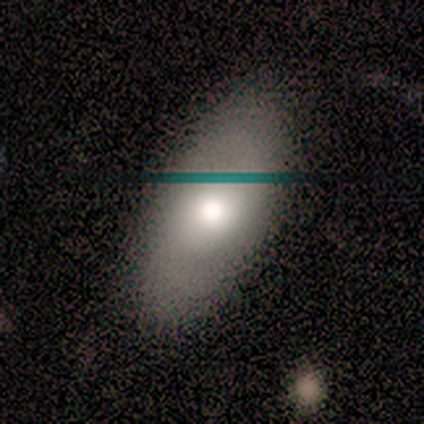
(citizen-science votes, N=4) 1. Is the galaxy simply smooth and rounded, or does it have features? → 50% featured or disk, 25% smooth, 25% star or artifact.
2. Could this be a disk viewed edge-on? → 100% no, 0% yes.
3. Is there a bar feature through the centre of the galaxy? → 50% strong (tied), 50% no (tied), 0% weak.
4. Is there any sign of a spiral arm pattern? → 50% yes (tied), 50% no (tied).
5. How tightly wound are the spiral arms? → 100% medium, 0% tight, 0% loose.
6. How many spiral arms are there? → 100% 2, 0% 1, 0% 3, 0% 4, 0% more than 4, 0% can't tell.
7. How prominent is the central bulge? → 50% large (tied), 50% moderate (tied), 0% dominant, 0% small, 0% none.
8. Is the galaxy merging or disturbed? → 100% none, 0% minor disturbance, 0% major disturbance, 0% merger.